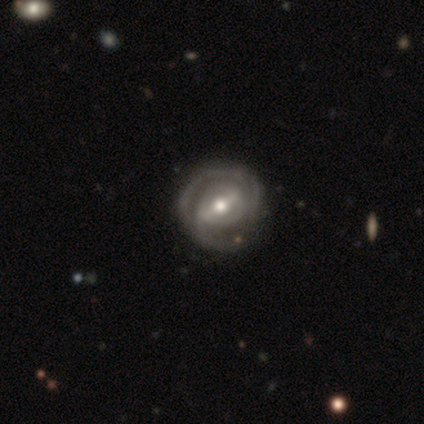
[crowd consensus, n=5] featured or disk 100%, smooth 0%, star or artifact 0%. Down the decision tree: edge-on disk — no (100%); bar — weak (80%); spiral arms — yes (100%); spiral arm count — 2 (40%, tied with can't tell); spiral winding — medium (60%); bulge size — moderate (100%); merging — none (40%, tied with major disturbance).